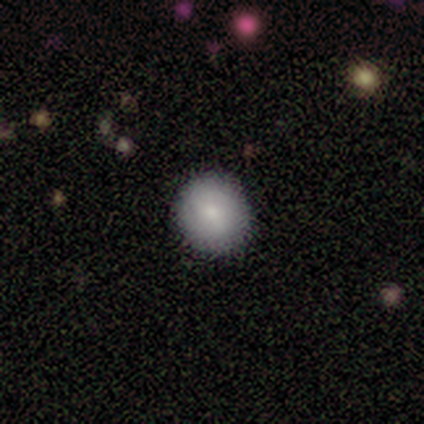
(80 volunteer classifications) smooth-or-featured: smooth: 82% | featured or disk: 12% | star or artifact: 5%
  how-rounded: round: 92% | in between: 8% | cigar-shaped: 0%
  merging: none: 47% | minor disturbance: 1% | major disturbance: 1% | merger: 0%